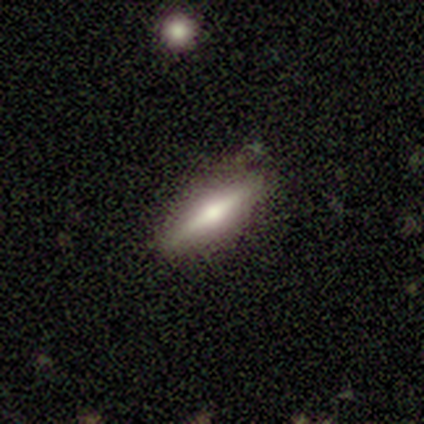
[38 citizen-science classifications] Morphology: type=featured or disk (84%); edge-on=yes (97%); edge-on bulge=rounded (90%); merging=none (89%).